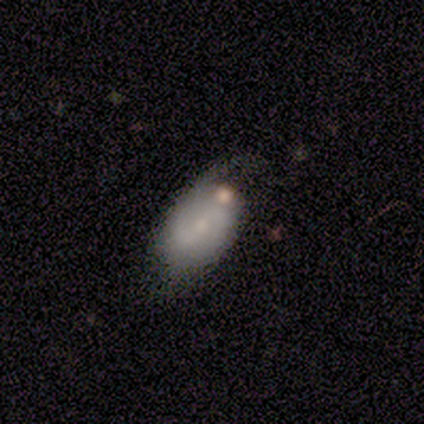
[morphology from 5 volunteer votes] Smooth or featured? smooth (40%, tied with featured or disk)
How rounded? in between (100%)
Merging? none (75%)